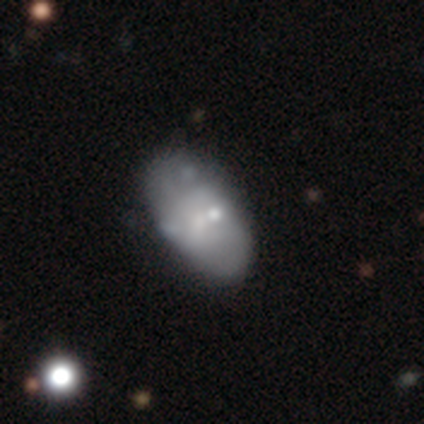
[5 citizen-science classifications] A smooth galaxy with no disk features (60%) that is in between round and cigar-shaped (100%). Merging: none (80%).